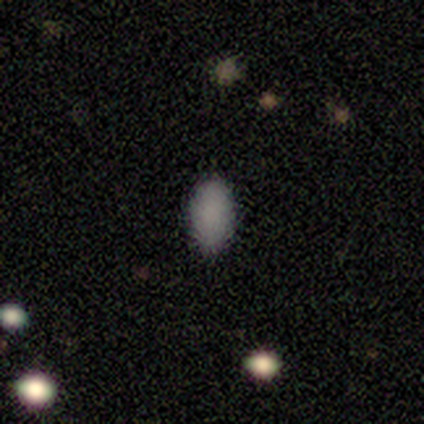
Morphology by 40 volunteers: Q: Smooth or featured?
A: smooth (85%); runner-up: featured or disk (8%)
Q: How rounded?
A: in between (97%); runner-up: round (3%)
Q: Merging?
A: none (84%); runner-up: minor disturbance (14%)